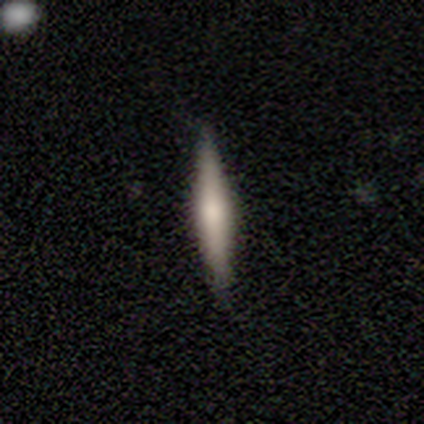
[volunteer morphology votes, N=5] Overall: featured or disk (80%). Edge-on disk: yes (100%). Edge-on bulge: rounded (100%). Merging: none (80%).